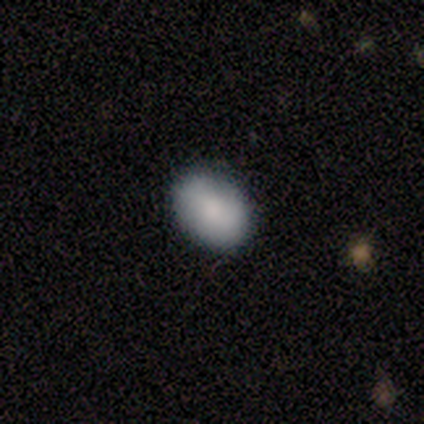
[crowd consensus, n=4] Morphology: type=smooth (100%); roundness=in between (100%); merging=none (75%).